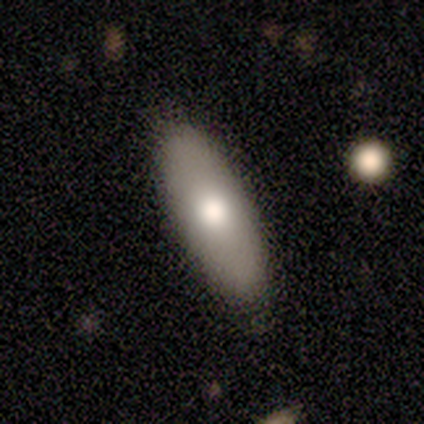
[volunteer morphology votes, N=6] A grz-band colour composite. It shows a smooth galaxy with no disk features (67%) that is in between round and cigar-shaped (100%). Merging: none (83%).